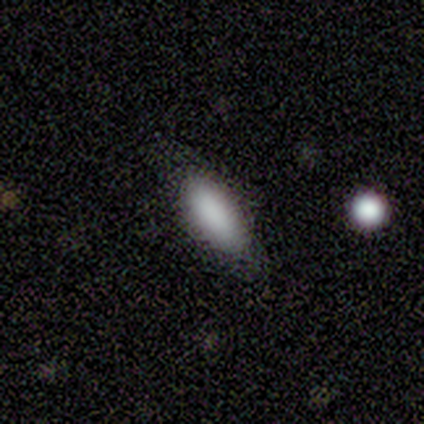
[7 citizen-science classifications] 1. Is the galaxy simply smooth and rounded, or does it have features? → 100% smooth, 0% featured or disk, 0% star or artifact.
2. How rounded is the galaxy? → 86% in between, 14% cigar-shaped, 0% round.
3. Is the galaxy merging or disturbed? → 100% none, 0% minor disturbance, 0% major disturbance, 0% merger.